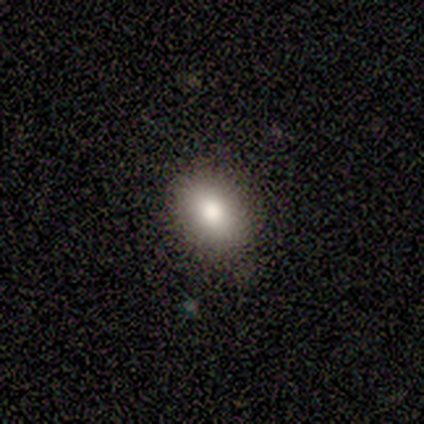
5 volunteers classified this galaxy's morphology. Smooth or featured? 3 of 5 (60%) said smooth. How rounded? 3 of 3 (100%) said in between. Merging? 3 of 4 (75%) said none.